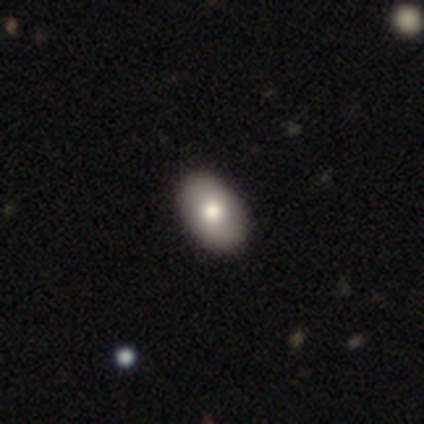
This is clearly a smooth galaxy (84%). How rounded: clearly in between (94%). Merging: likely none (61%).